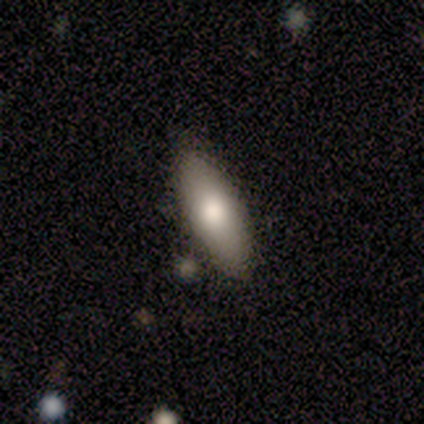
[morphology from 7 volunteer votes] type=smooth (57%); roundness=in between (75%); merging=none (60%).